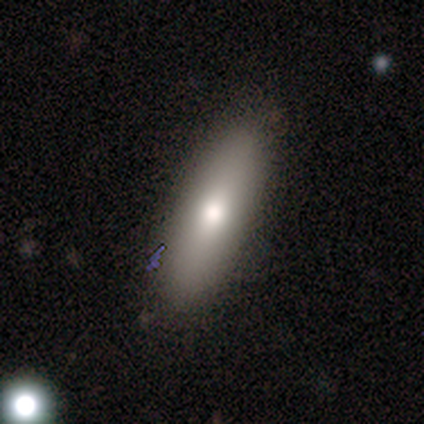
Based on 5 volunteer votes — Smooth or featured?
  - smooth: 80% *
  - featured or disk: 20%
  - star or artifact: 0%
How rounded?
  - in between: 50% * (tied)
  - cigar-shaped: 50% * (tied)
  - round: 0%
Merging?
  - none: 80% *
  - minor disturbance: 20%
  - major disturbance: 0%
  - merger: 0%